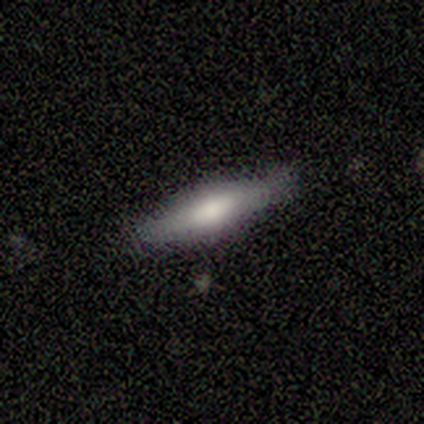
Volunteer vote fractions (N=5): smooth 40% (tied), star or artifact 40% (tied), featured or disk 20%. Down the decision tree: how rounded — cigar-shaped (100%); merging — none (33%, tied with major disturbance and merger).